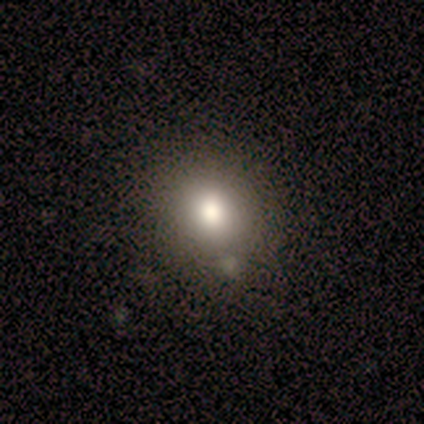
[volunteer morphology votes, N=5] type=smooth (40%, tied with star or artifact); roundness=in between (100%); merging=none (67%).